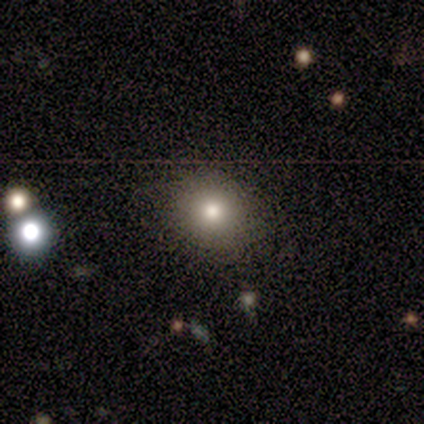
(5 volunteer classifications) Smooth or featured: smooth — 40% (tied with featured or disk — 40%)
How rounded: round — 100%
Merging: none — 100%